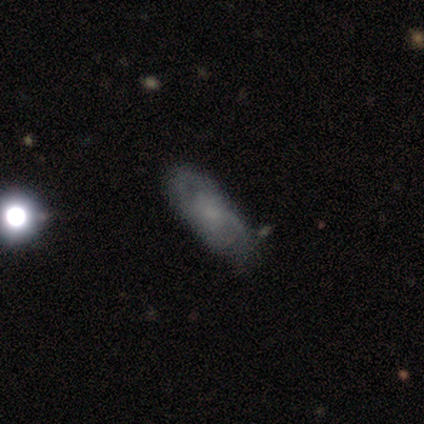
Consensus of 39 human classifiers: Smooth or featured? featured or disk (59%)
Edge-on disk? no (96%)
Bar? no (100%)
Spiral arms? yes (77%)
Spiral winding? medium (41%)
Spiral arm count? can't tell (47%)
Bulge size? small (73%)
Merging? none (58%)